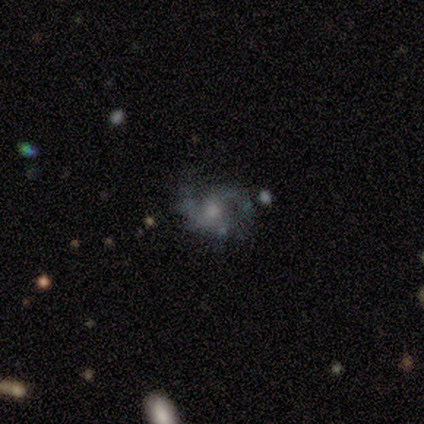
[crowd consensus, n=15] Smooth or featured? featured or disk (80%)
Edge-on disk? no (100%)
Bar? no (58%)
Spiral arms? yes (83%)
Spiral winding? medium (50%)
Spiral arm count? 2 (90%)
Bulge size? small (67%)
Merging? none (47%)